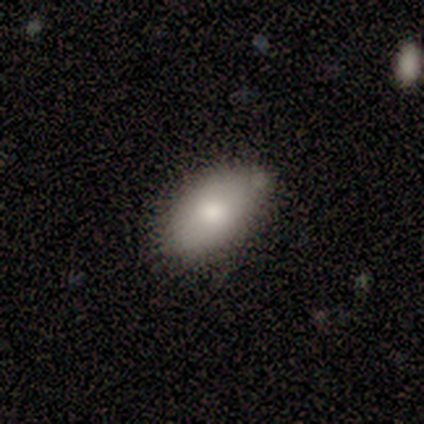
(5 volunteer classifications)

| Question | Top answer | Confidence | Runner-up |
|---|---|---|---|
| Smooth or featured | smooth | 100% | — |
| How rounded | in between | 100% | — |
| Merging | none | 100% | — |